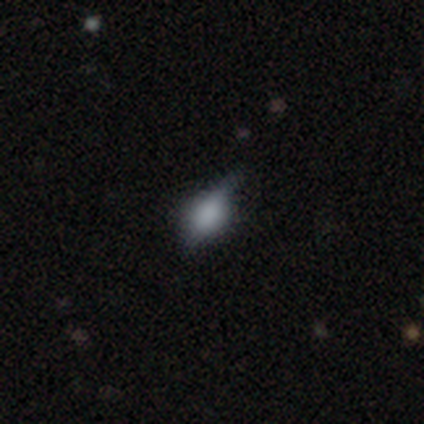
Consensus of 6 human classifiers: smooth 83%, featured or disk 17%, star or artifact 0%. Down the decision tree: how rounded — in between (80%); merging — minor disturbance (67%).